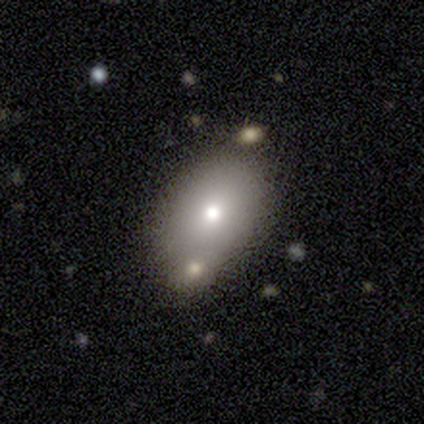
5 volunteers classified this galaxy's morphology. This is likely a smooth galaxy (60%). How rounded: clearly in between (100%). Merging: likely merger (60%).